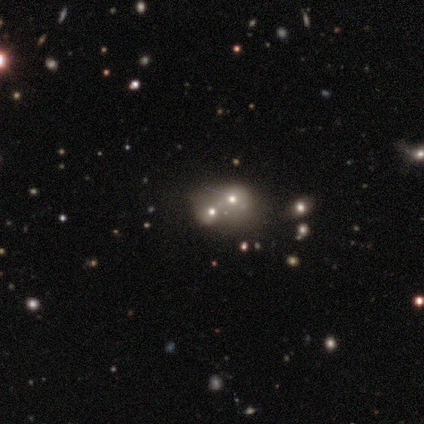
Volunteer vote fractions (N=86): Smooth or featured? 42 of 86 (49%) said smooth. How rounded? 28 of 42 (67%) said round. Merging? 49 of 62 (79%) said merger.